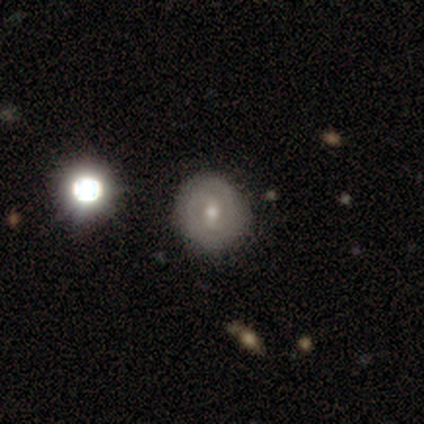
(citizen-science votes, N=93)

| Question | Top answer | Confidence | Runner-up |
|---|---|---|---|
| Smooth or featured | featured or disk | 51% | smooth (39%) |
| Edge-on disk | no | 100% | — |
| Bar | weak | 64% | no (32%) |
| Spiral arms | yes | 74% | no (26%) |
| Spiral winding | tight | 74% | medium (20%) |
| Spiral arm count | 2 | 54% | can't tell (31%) |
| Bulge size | small | 57% | moderate (38%) |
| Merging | none | 89% | minor disturbance (7%) |